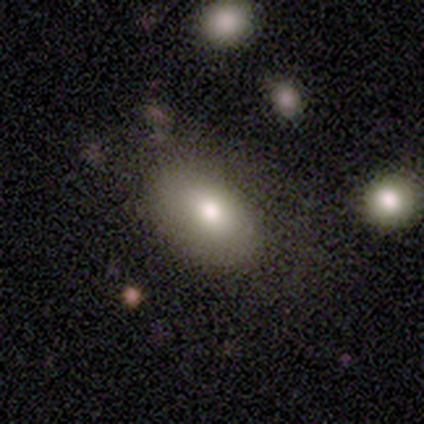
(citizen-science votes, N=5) Overall: smooth (100%). How rounded: in between (80%). Merging: none (80%).